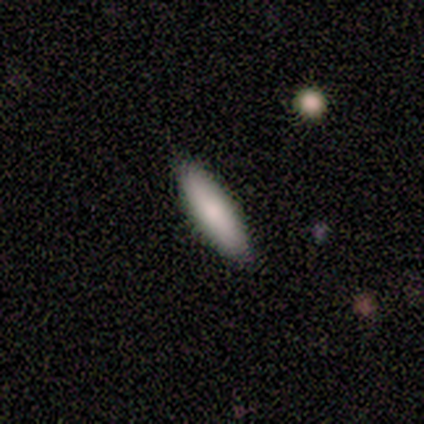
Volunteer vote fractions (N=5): Smooth or featured: smooth — 60% (featured or disk — 40%)
How rounded: in between — 67% (cigar-shaped — 33%)
Merging: none — 80% (minor disturbance — 20%)